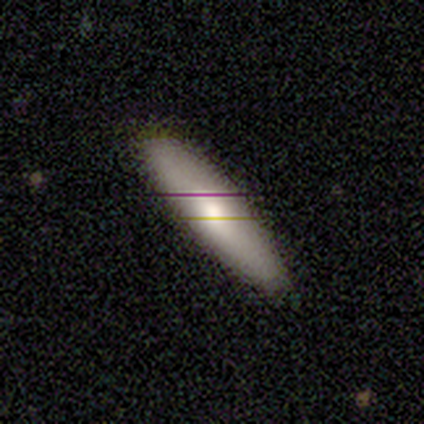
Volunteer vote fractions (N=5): smooth 100%, featured or disk 0%, star or artifact 0%. Down the decision tree: how rounded — cigar-shaped (100%); merging — none (80%).